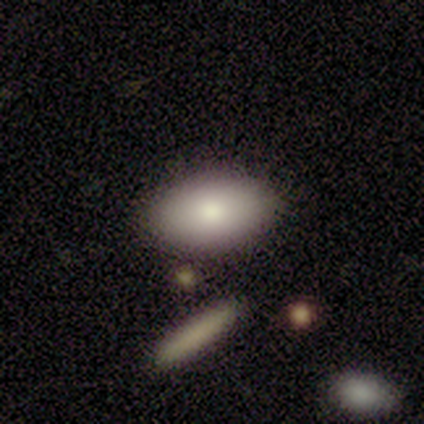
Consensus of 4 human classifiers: Q: Smooth or featured?
A: smooth (75%); runner-up: star or artifact (25%)
Q: How rounded?
A: in between (100%)
Q: Merging?
A: none (100%)